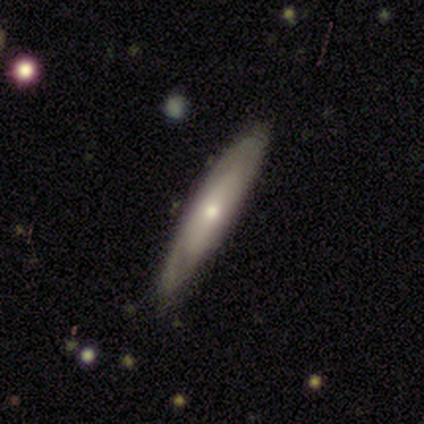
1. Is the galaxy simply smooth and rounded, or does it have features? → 50% smooth (tied), 50% featured or disk (tied), 0% star or artifact.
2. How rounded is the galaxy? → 67% in between, 33% cigar-shaped, 0% round.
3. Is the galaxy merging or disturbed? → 83% none, 17% minor disturbance, 0% major disturbance, 0% merger.